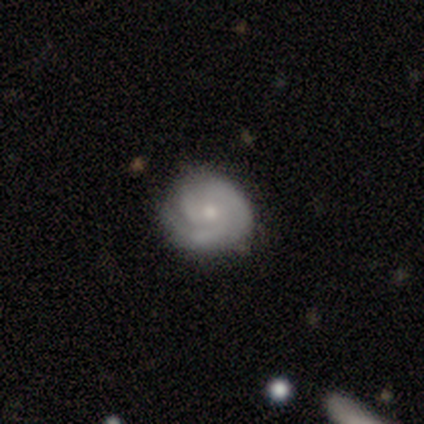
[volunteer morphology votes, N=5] Volunteers were most divided on "spiral arm count" (3-way tie): 2: 33%, 3: 33%, can't tell: 33%, 1: 0%, 4: 0%, more than 4: 0%. More confident: edge-on disk — no (100%); bar — no (100%); spiral arms — yes (100%); spiral winding — tight (100%); bulge size — small (100%); merging — none (80%); smooth or featured — featured or disk (60%).